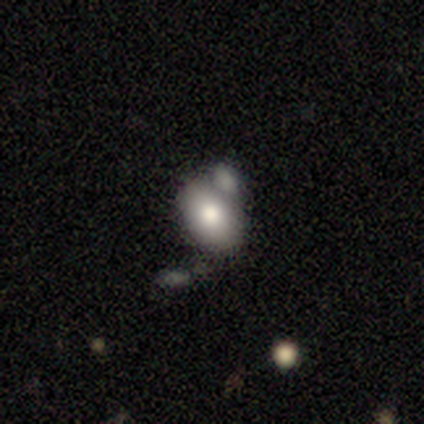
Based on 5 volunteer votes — This is clearly a smooth galaxy (100%). How rounded: clearly in between (80%). Merging: marginally none (40%, tied with minor disturbance).